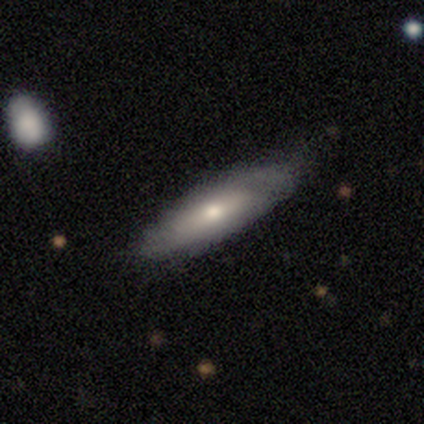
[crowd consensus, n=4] smooth-or-featured: smooth: 75% | featured or disk: 25% | star or artifact: 0%
  how-rounded: cigar-shaped: 67% | in between: 33% | round: 0%
  merging: none: 50% (tied) | minor disturbance: 50% (tied) | major disturbance: 0% | merger: 0%